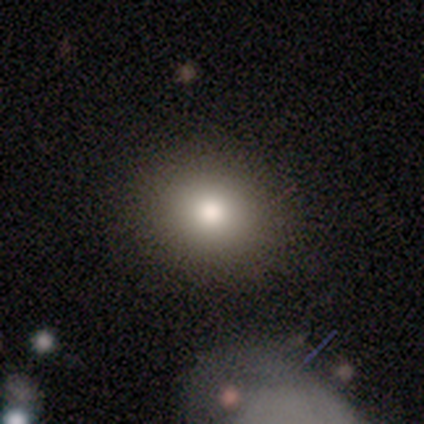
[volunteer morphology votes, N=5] smooth-or-featured: smooth: 60% | star or artifact: 40% | featured or disk: 0%
  how-rounded: round: 67% | in between: 33% | cigar-shaped: 0%
  merging: none: 100% | minor disturbance: 0% | major disturbance: 0% | merger: 0%